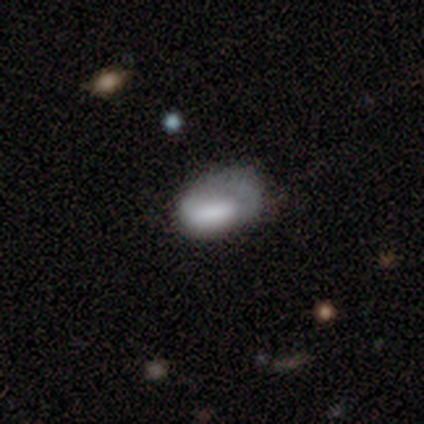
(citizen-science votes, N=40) Smooth or featured?
  - smooth: 62% *
  - featured or disk: 30%
  - star or artifact: 8%
How rounded?
  - in between: 96% *
  - round: 4%
  - cigar-shaped: 0%
Merging?
  - none: 41% *
  - minor disturbance: 38%
  - major disturbance: 22%
  - merger: 0%